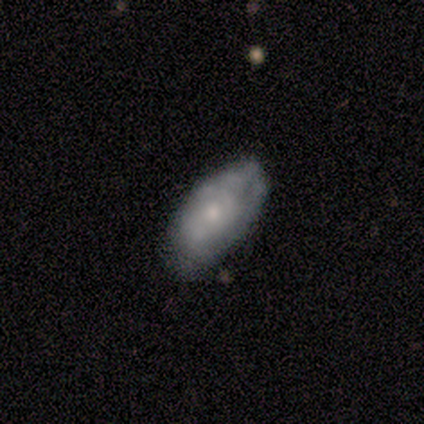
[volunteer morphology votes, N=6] smooth_or_featured: smooth (p=0.50) [tied with: featured or disk p=0.50]
how_rounded: in between (p=1.00)
merging: none (p=0.83) [alt: minor disturbance p=0.17]